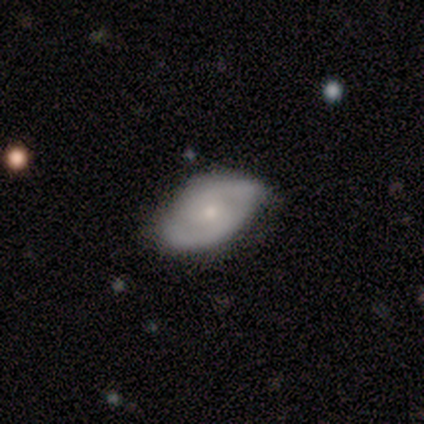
A featured or disk galaxy (67%) with no bar (67%), 2 (83%) medium (50%) spiral arms (100%) and a small central bulge (67%).

Vote fractions:
- Smooth or featured? featured or disk: 67% / smooth: 33% / star or artifact: 0%
- Edge-on disk? no: 100% / yes: 0%
- Bar? no: 67% / weak: 33% / strong: 0%
- Spiral arms? yes: 100% / no: 0%
- Spiral winding? medium: 50% / tight: 33% / loose: 17%
- Spiral arm count? 2: 83% / can't tell: 17% / 1: 0% / 3: 0% / 4: 0% / more than 4: 0%
- Bulge size? small: 67% / moderate: 17% / none: 17% / dominant: 0% / large: 0%
- Merging? none: 56% / minor disturbance: 44% / major disturbance: 0% / merger: 0%